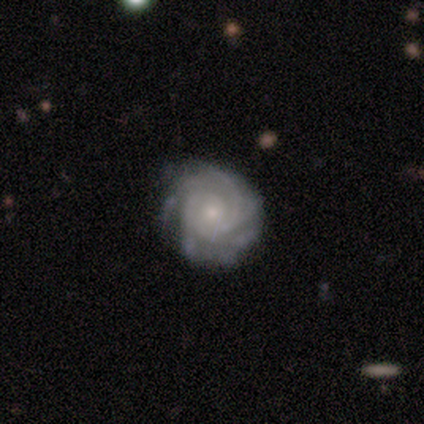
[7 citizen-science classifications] Overall: featured or disk (86%). Edge-on disk: no (100%). Bar: no (100%). Spiral arms: yes (100%). Spiral arm count: 3 (33%, tied with can't tell). Spiral winding: tight (83%). Bulge size: small (67%; moderate 33%). Merging: none (71%).